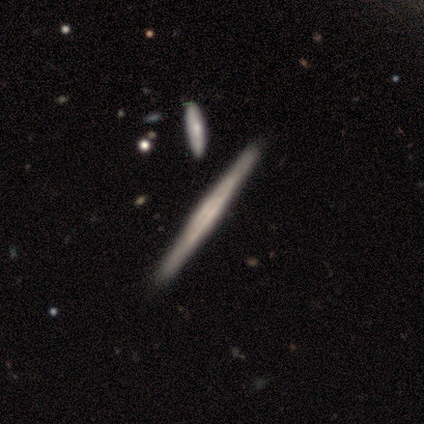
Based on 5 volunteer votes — Overall: featured or disk (80%). Edge-on disk: yes (100%). Edge-on bulge: none (75%). Merging: none (80%).